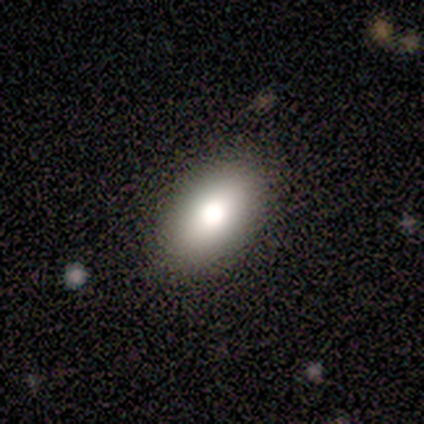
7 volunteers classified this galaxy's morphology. Q: Smooth or featured?
A: smooth (86%); runner-up: star or artifact (14%)
Q: How rounded?
A: in between (100%)
Q: Merging?
A: none (100%)